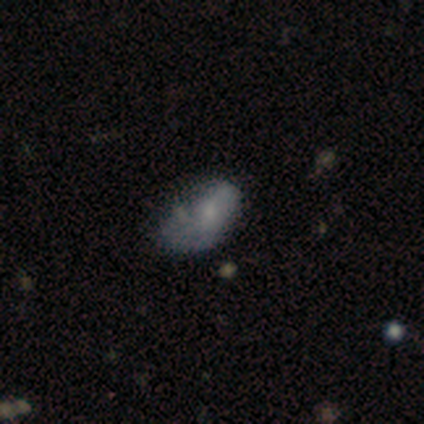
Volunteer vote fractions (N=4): Smooth or featured: smooth — 75% (star or artifact — 25%)
How rounded: in between — 100%
Merging: major disturbance — 67% (none — 33%)